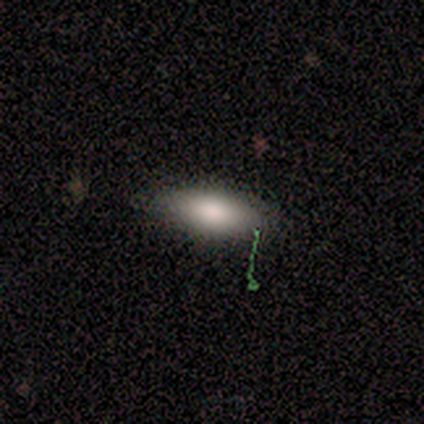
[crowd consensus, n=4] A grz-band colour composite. It shows a smooth galaxy with no disk features (100%) that is in between round and cigar-shaped (100%). Merging: none (100%).